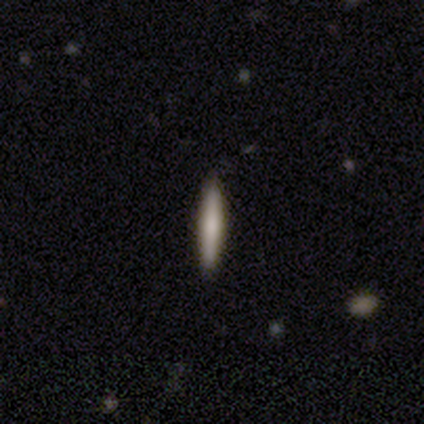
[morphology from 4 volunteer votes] A smooth galaxy with no disk features (50%, tied with featured or disk) that is cigar-shaped (100%).

Vote fractions:
- Smooth or featured? smooth: 50% (tied) / featured or disk: 50% (tied) / star or artifact: 0%
- How rounded? cigar-shaped: 100% / round: 0% / in between: 0%
- Merging? none: 100% / minor disturbance: 0% / major disturbance: 0% / merger: 0%